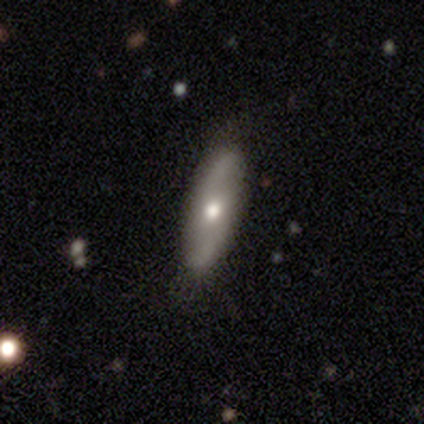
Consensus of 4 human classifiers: This appears to be a smooth galaxy with no disk features (50%, tied with featured or disk) that is in between round and cigar-shaped (100%). Merging: none (75%).